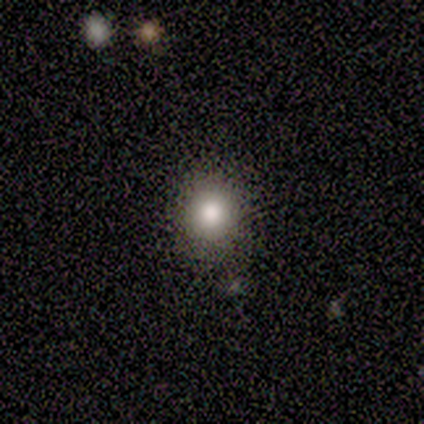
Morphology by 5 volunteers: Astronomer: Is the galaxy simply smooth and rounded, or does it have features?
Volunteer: smooth — 100%.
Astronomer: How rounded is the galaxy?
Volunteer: round — 60% (runner-up: in between, 40%).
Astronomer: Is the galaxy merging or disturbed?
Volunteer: none — 80%.